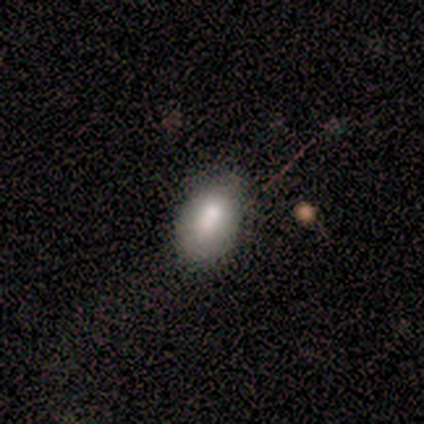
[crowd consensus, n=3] Smooth or featured? smooth (100%)
How rounded? in between (100%)
Merging? none (67%)